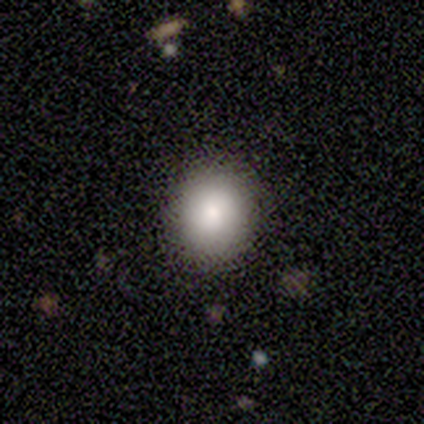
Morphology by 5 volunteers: Q: Smooth or featured?
A: smooth (80%); runner-up: star or artifact (20%)
Q: How rounded?
A: round (100%)
Q: Merging?
A: none (100%)